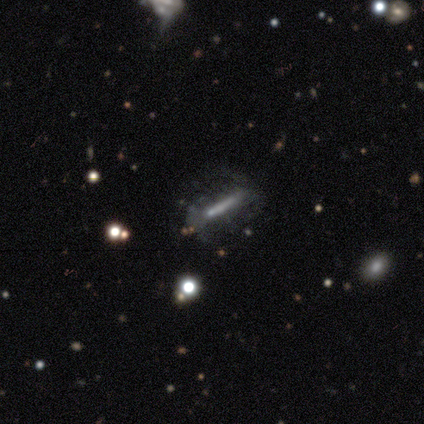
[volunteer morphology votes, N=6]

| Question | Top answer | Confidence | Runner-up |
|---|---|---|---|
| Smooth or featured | featured or disk | 67% | smooth (17%) |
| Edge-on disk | no | 75% | yes (25%) |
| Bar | strong | 33% | tied: weak (33%), no (33%) |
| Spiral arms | yes | 67% | no (33%) |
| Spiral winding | loose | 100% | — |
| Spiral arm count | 1 | 50% | tied: 2 (50%) |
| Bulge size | none | 100% | — |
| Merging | none | 60% | minor disturbance (20%) |